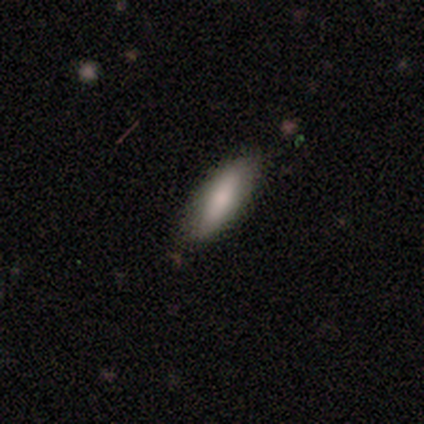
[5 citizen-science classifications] smooth-or-featured: smooth: 80% | star or artifact: 20% | featured or disk: 0%
  how-rounded: in between: 50% (tied) | cigar-shaped: 50% (tied) | round: 0%
  merging: none: 75% | minor disturbance: 25% | major disturbance: 0% | merger: 0%